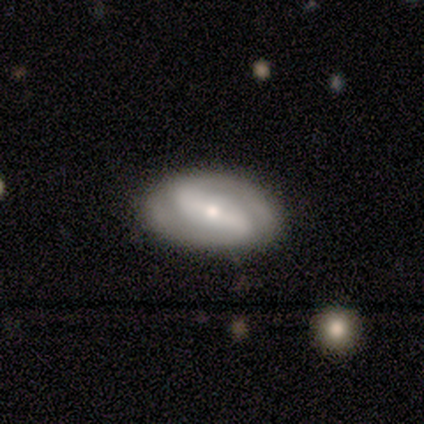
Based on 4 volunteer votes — Morphology: type=featured or disk (100%); edge-on=no (100%); bar=weak (50%); spiral arms=yes (100%); winding=medium (75%); arm count=2 (75%); bulge=moderate (50%, tied with small); merging=none (100%).